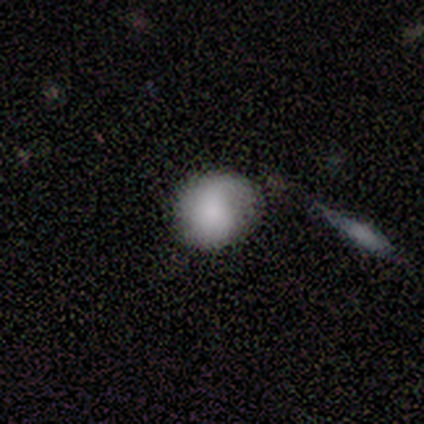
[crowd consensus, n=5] Q: Smooth or featured?
A: smooth (80%); runner-up: featured or disk (20%)
Q: How rounded?
A: round (75%); runner-up: cigar-shaped (25%)
Q: Merging?
A: none (60%); runner-up: minor disturbance (20%)